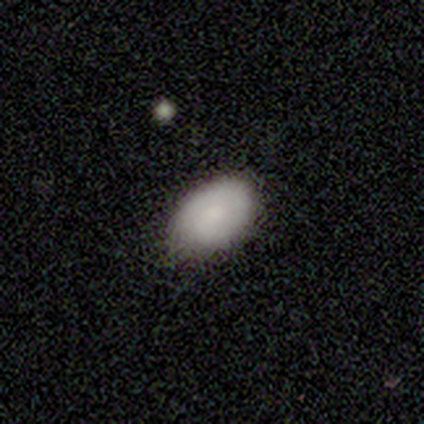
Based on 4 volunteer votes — smooth-or-featured: smooth: 100% | featured or disk: 0% | star or artifact: 0%
  how-rounded: in between: 100% | round: 0% | cigar-shaped: 0%
  merging: none: 100% | minor disturbance: 0% | major disturbance: 0% | merger: 0%